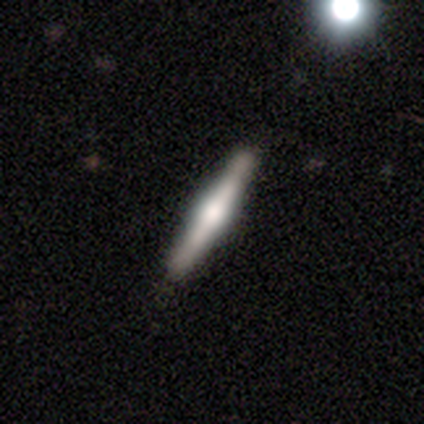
Smooth or featured? featured or disk (72%)
Edge-on disk? yes (100%)
Edge-on bulge? rounded (76%)
Merging? none (79%)